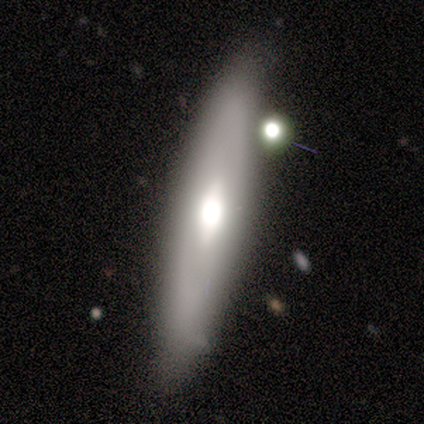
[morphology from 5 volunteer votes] A featured or disk galaxy (60%) with a weak bar (50%, tied with no), no spiral arms (100%) and a large central bulge (50%, tied with small).

Vote fractions:
- Smooth or featured? featured or disk: 60% / smooth: 40% / star or artifact: 0%
- Edge-on disk? no: 67% / yes: 33%
- Bar? weak: 50% (tied) / no: 50% (tied) / strong: 0%
- Spiral arms? no: 100% / yes: 0%
- Bulge size? large: 50% (tied) / small: 50% (tied) / dominant: 0% / moderate: 0% / none: 0%
- Merging? none: 60% / minor disturbance: 40% / major disturbance: 0% / merger: 0%